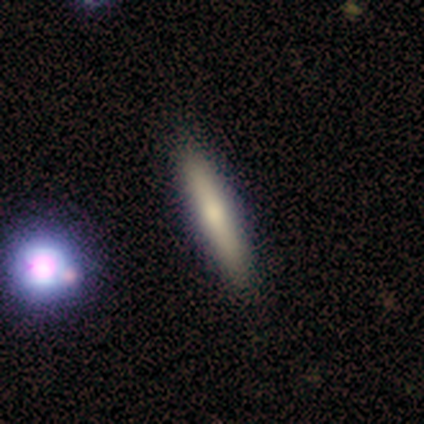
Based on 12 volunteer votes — Smooth or featured: smooth — 75% (featured or disk — 17%)
How rounded: cigar-shaped — 100%
Merging: none — 91% (minor disturbance — 9%)